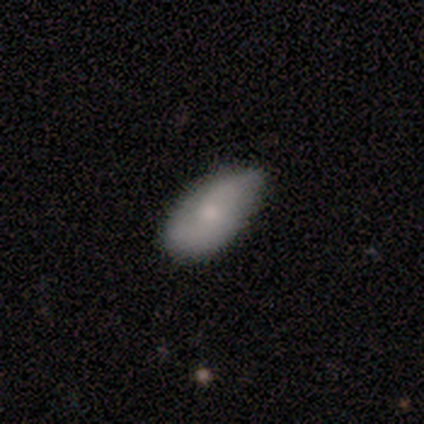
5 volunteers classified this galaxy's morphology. A featured or disk galaxy (60%) with no bar (67%), no spiral arms (67%) and a small central bulge (67%).

Vote fractions:
- Smooth or featured? featured or disk: 60% / smooth: 40% / star or artifact: 0%
- Edge-on disk? no: 100% / yes: 0%
- Bar? no: 67% / weak: 33% / strong: 0%
- Spiral arms? no: 67% / yes: 33%
- Bulge size? small: 67% / moderate: 33% / dominant: 0% / large: 0% / none: 0%
- Merging? none: 80% / minor disturbance: 20% / major disturbance: 0% / merger: 0%